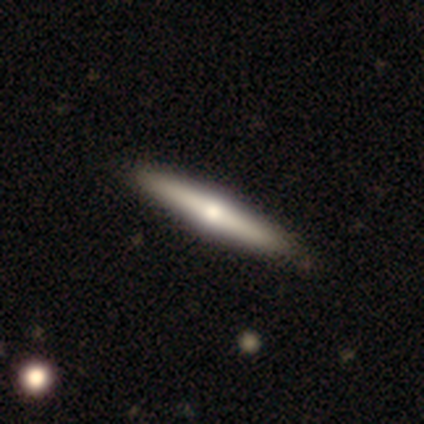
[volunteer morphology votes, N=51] Smooth or featured? featured or disk (51%)
Edge-on disk? yes (96%)
Edge-on bulge? rounded (92%)
Merging? none (91%)